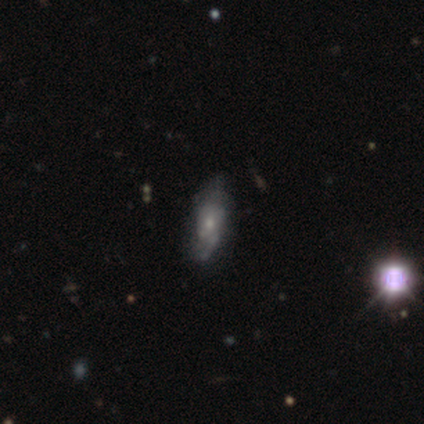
Smooth or featured? featured or disk (60%)
Edge-on disk? no (100%)
Bar? no (67%)
Spiral arms? no (67%)
Bulge size? moderate (100%)
Merging? minor disturbance (60%)